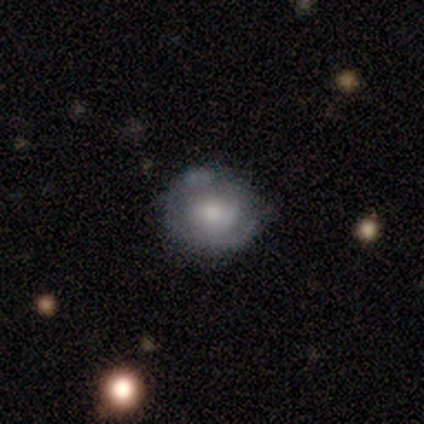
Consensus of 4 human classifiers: smooth-or-featured: featured or disk: 100% | smooth: 0% | star or artifact: 0%
  disk-edge-on: no: 100% | yes: 0%
    bar: no: 75% | weak: 25% | strong: 0%
    has-spiral-arms: yes: 75% | no: 25%
      spiral-winding: tight: 67% | medium: 33% | loose: 0%
      spiral-arm-count: 1: 67% | can't tell: 33% | 2: 0% | 3: 0% | 4: 0% | more than 4: 0%
    bulge-size: small: 50% | moderate: 25% | none: 25% | dominant: 0% | large: 0%
  merging: none: 50% (tied) | minor disturbance: 50% (tied) | major disturbance: 0% | merger: 0%